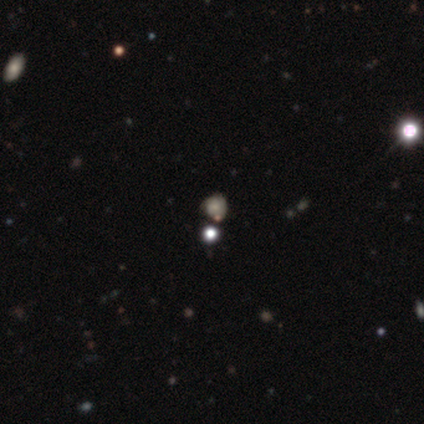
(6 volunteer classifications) Q: Smooth or featured?
A: star or artifact (83%); runner-up: smooth (17%)